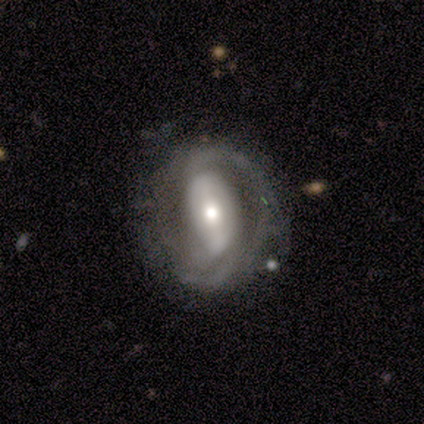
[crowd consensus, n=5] Smooth or featured? featured or disk (100%)
Edge-on disk? no (100%)
Bar? strong (80%)
Spiral arms? yes (100%)
Spiral winding? tight (60%)
Spiral arm count? 2 (80%)
Bulge size? large (40%, tied with moderate)
Merging? minor disturbance (60%)